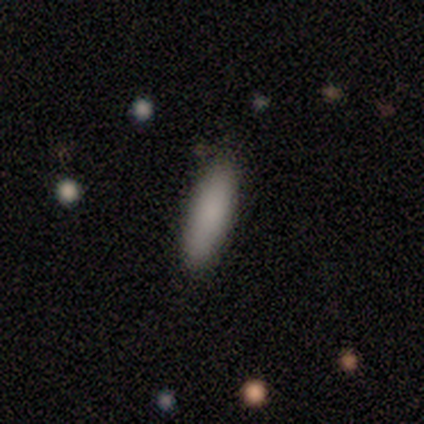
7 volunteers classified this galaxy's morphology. A smooth galaxy with no disk features (86%) that is in between round and cigar-shaped (50%, tied with cigar-shaped).

Vote fractions:
- Smooth or featured? smooth: 86% / star or artifact: 14% / featured or disk: 0%
- How rounded? in between: 50% (tied) / cigar-shaped: 50% (tied) / round: 0%
- Merging? none: 67% / minor disturbance: 33% / major disturbance: 0% / merger: 0%